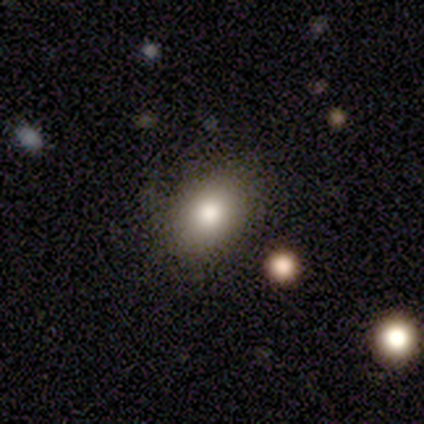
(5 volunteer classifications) Overall: smooth (80%). How rounded: in between (100%). Merging: none (80%).